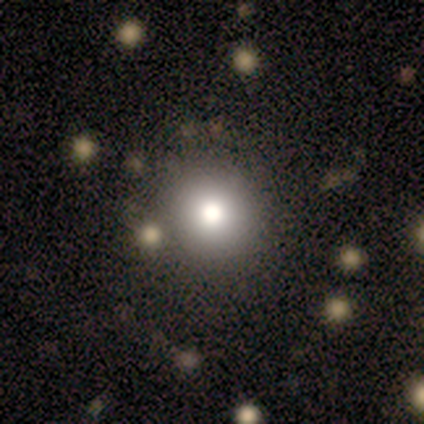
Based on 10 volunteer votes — Volunteers were most divided on "smooth or featured": smooth: 70%, star or artifact: 20%, featured or disk: 10%. More confident: how rounded — round (100%); merging — none (88%).